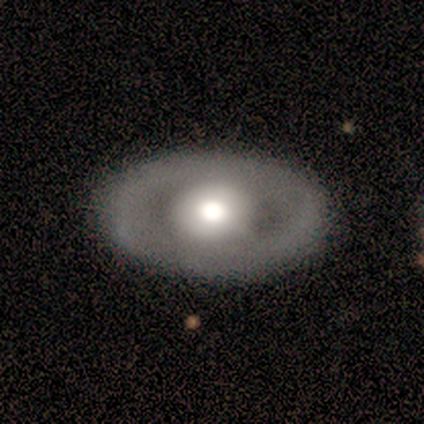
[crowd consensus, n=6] smooth_or_featured: featured or disk (p=0.83) [alt: smooth p=0.17]
disk_edge_on: no (p=1.00)
bar: no (p=0.80) [alt: weak p=0.20]
has_spiral_arms: no (p=0.60) [alt: yes p=0.40]
bulge_size: moderate (p=0.60) [alt: large p=0.40]
merging: none (p=0.83) [alt: major disturbance p=0.17]